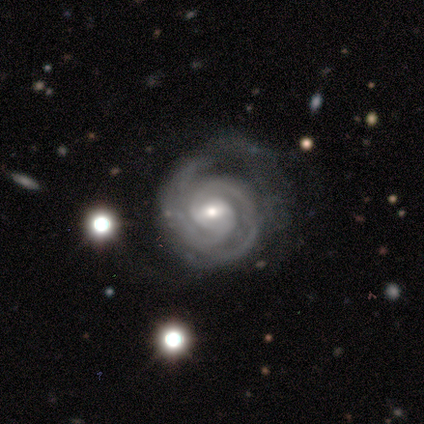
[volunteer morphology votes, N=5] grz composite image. It shows a featured or disk galaxy (100%) with a strong bar (40%, tied with no), 2 (100%) tight (80%) spiral arms (100%) and a moderate central bulge (80%). Merging: none (60%).